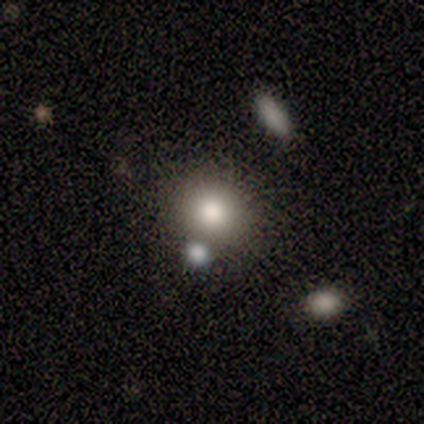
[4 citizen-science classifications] smooth_or_featured: smooth (p=0.75) [alt: star or artifact p=0.25]
how_rounded: round (p=1.00)
merging: none (p=1.00)